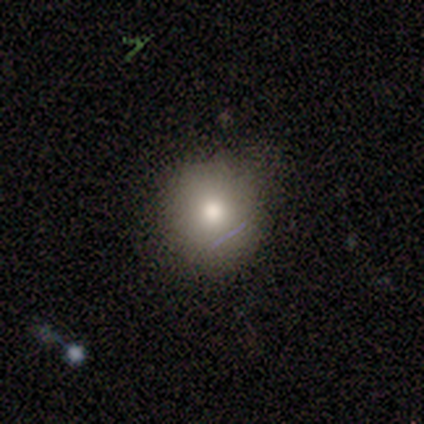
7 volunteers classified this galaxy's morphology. Volunteers were most divided on "how rounded": round: 83%, in between: 17%, cigar-shaped: 0%. More confident: smooth or featured — smooth (86%); merging — none (83%).